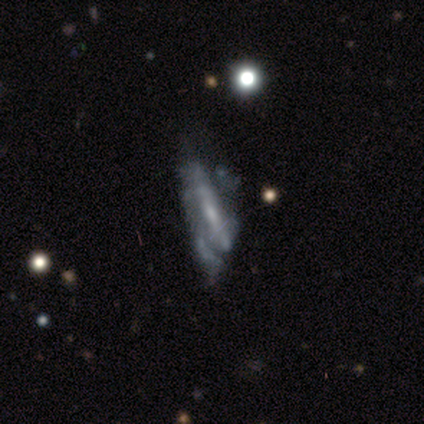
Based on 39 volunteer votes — featured or disk 82%, smooth 10%, star or artifact 8%. Down the decision tree: edge-on disk — no (81%); bar — no (50%); spiral arms — no (81%); bulge size — small (65%); merging — major disturbance (39%).